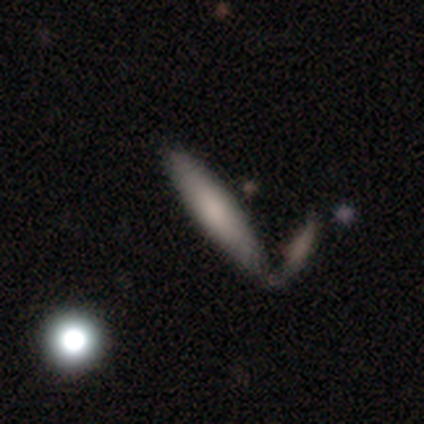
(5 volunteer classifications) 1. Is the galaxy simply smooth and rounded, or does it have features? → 80% smooth, 20% featured or disk, 0% star or artifact.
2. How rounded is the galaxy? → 100% cigar-shaped, 0% round, 0% in between.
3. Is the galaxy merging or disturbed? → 40% none (tied), 40% merger (tied), 20% minor disturbance, 0% major disturbance.